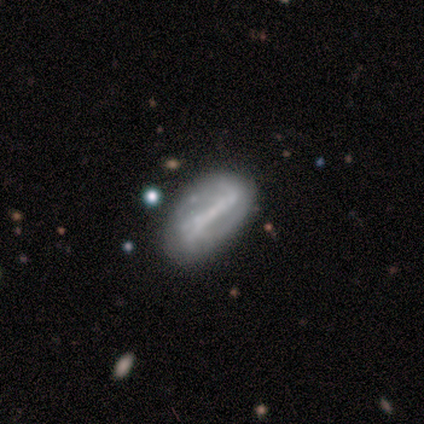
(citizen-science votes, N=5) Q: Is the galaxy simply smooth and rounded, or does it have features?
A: featured or disk — 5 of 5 (100%).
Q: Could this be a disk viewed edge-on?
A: no — 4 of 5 (80%).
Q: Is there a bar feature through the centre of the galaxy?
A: strong — 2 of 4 (50%, tied with no).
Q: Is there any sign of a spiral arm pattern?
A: yes — 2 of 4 (50%, tied with no).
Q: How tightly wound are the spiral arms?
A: tight — 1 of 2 (50%, tied with loose).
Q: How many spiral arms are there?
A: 2 — 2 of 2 (100%).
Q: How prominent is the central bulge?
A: none — 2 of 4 (50%).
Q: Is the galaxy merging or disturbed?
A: none — 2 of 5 (40%).